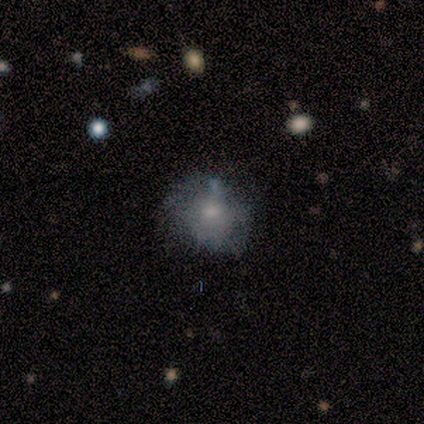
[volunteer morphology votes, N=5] Overall: smooth (40%, tied with star or artifact). How rounded: round (100%). Merging: minor disturbance (67%; none 33%).